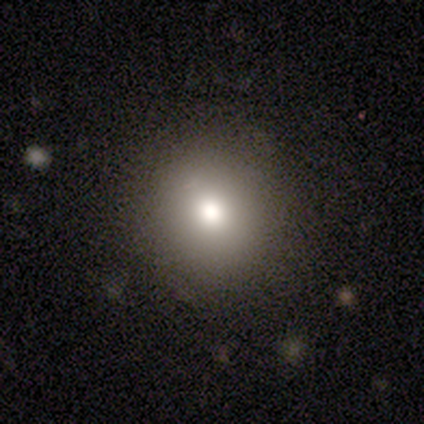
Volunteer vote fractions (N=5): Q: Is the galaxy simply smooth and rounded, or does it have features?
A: smooth — 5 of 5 (100%).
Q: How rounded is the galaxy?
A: round — 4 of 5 (80%).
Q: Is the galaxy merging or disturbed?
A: none — 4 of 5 (80%).